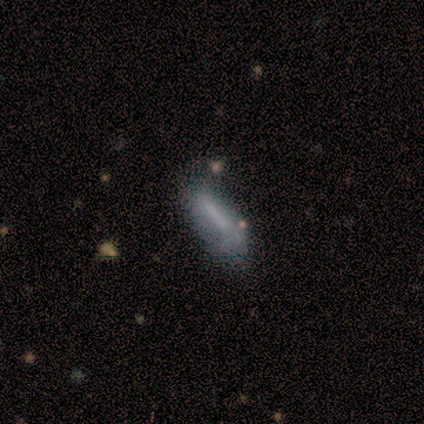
smooth_or_featured: smooth (p=0.58) [alt: featured or disk p=0.35]
how_rounded: cigar-shaped (p=0.57) [alt: in between p=0.43]
merging: none (p=0.54) [alt: minor disturbance p=0.25]